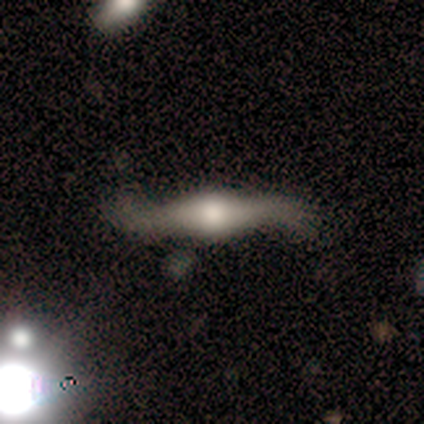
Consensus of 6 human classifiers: featured or disk 83%, smooth 17%, star or artifact 0%. Down the decision tree: edge-on disk — no (60%); bar — weak (100%); spiral arms — yes (100%); spiral arm count — 2 (100%); spiral winding — loose (100%); bulge size — dominant (67%); merging — minor disturbance (67%).